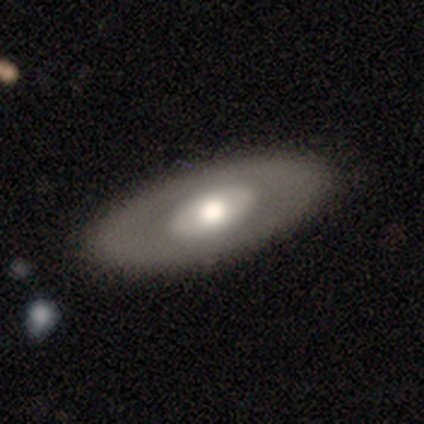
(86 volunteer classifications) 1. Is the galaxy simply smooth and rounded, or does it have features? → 50% smooth, 49% featured or disk, 1% star or artifact.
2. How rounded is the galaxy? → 79% in between, 19% cigar-shaped, 2% round.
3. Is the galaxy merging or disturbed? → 81% none, 15% minor disturbance, 2% merger, 1% major disturbance.